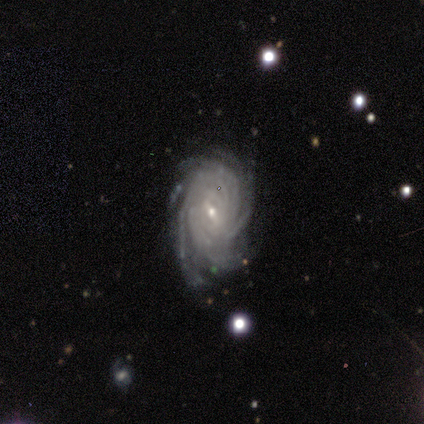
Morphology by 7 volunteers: smooth_or_featured: featured or disk (p=1.00)
disk_edge_on: no (p=1.00)
bar: weak (p=0.57) [alt: strong p=0.43]
has_spiral_arms: yes (p=1.00)
spiral_winding: tight (p=1.00)
spiral_arm_count: more than 4 (p=0.86) [alt: can't tell p=0.14]
bulge_size: small (p=0.57) [alt: dominant p=0.14]
merging: none (p=0.71) [alt: minor disturbance p=0.14]